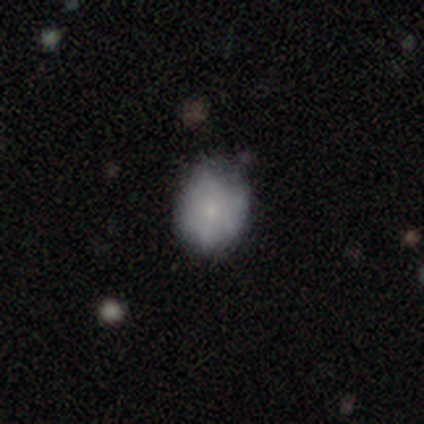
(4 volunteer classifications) Smooth or featured?
  - smooth: 100% *
  - featured or disk: 0%
  - star or artifact: 0%
How rounded?
  - round: 75% *
  - in between: 25%
  - cigar-shaped: 0%
Merging?
  - none: 75% *
  - minor disturbance: 25%
  - major disturbance: 0%
  - merger: 0%